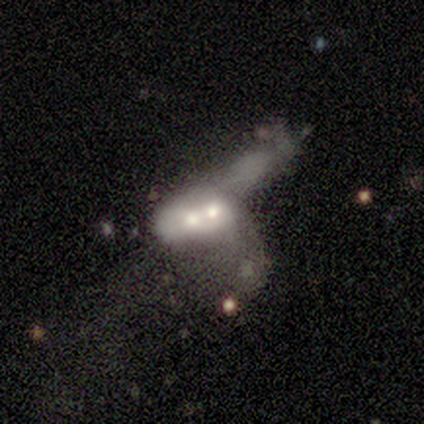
Smooth or featured: smooth — 50% (tied with featured or disk — 50%)
How rounded: in between — 100%
Merging: merger — 75% (none — 25%)